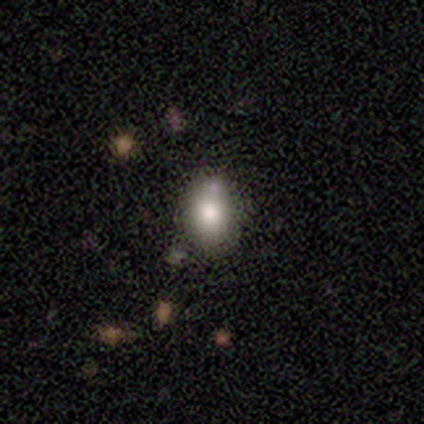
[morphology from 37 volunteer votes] Smooth or featured? smooth (65%)
How rounded? in between (71%)
Merging? none (55%)